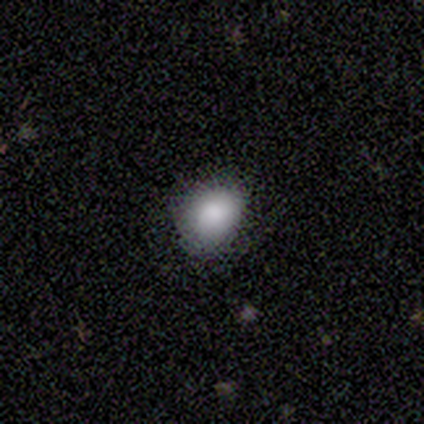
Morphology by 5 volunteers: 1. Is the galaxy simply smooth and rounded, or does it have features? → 100% smooth, 0% featured or disk, 0% star or artifact.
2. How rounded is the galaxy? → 60% round, 40% in between, 0% cigar-shaped.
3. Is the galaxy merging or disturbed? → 100% none, 0% minor disturbance, 0% major disturbance, 0% merger.